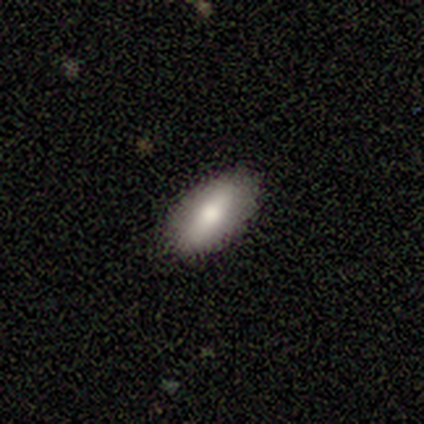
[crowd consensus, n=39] Volunteers were most divided on "smooth or featured": smooth: 64%, featured or disk: 28%, star or artifact: 8%. More confident: how rounded — in between (92%); merging — none (86%).